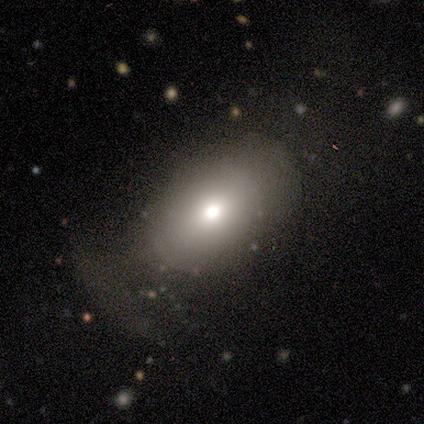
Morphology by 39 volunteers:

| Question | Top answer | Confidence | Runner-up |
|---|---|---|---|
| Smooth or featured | smooth | 62% | featured or disk (21%) |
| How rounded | in between | 83% | round (17%) |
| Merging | none | 56% | minor disturbance (22%) |